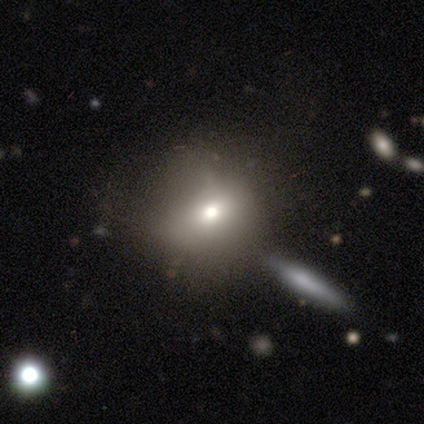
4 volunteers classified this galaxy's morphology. type=smooth (100%); roundness=round (100%); merging=none (75%).